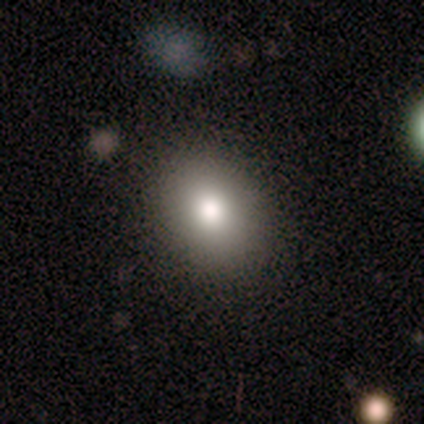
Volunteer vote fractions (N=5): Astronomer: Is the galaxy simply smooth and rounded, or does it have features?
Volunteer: smooth — 80%.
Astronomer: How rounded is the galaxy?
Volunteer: round — 50%, tied with in between at 50%.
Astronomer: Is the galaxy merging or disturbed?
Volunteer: none — 100%.